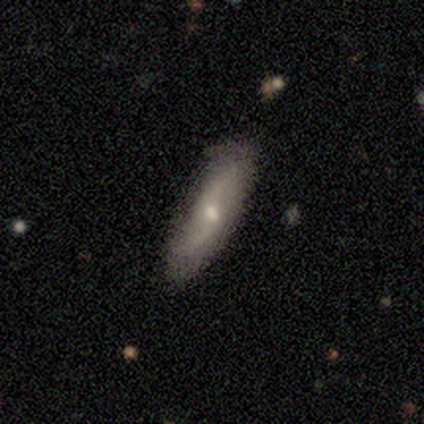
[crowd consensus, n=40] Q: Smooth or featured?
A: featured or disk (52%); runner-up: smooth (42%)
Q: Edge-on disk?
A: no (71%); runner-up: yes (29%)
Q: Bar?
A: weak (53%); runner-up: no (33%)
Q: Spiral arms?
A: yes (93%); runner-up: no (7%)
Q: Spiral winding?
A: loose (93%); runner-up: tight (7%)
Q: Spiral arm count?
A: 2 (100%)
Q: Bulge size?
A: moderate (60%); runner-up: small (33%)
Q: Merging?
A: none (71%); runner-up: minor disturbance (8%)